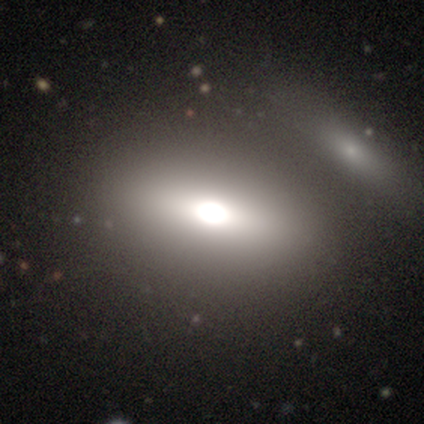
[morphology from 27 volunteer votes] Smooth or featured? 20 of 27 (74%) said smooth. How rounded? 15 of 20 (75%) said in between. Merging? 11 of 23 (48%) said merger.